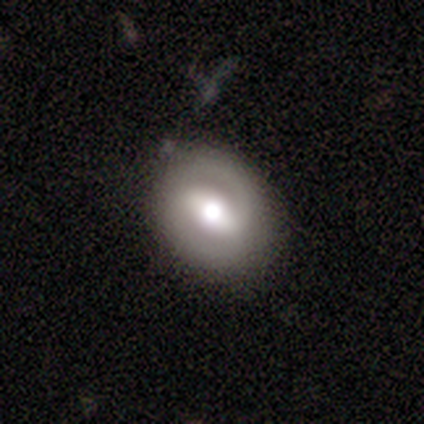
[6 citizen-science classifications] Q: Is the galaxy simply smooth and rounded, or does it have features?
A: featured or disk — 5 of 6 (83%).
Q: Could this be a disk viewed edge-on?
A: no — 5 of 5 (100%).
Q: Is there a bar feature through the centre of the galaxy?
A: strong — 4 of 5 (80%).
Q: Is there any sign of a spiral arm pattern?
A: yes — 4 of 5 (80%).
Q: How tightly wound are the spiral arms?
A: tight — 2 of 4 (50%, tied with medium).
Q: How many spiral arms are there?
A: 2 — 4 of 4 (100%).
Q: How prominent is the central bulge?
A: moderate — 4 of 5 (80%).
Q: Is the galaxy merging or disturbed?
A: none — 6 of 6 (100%).